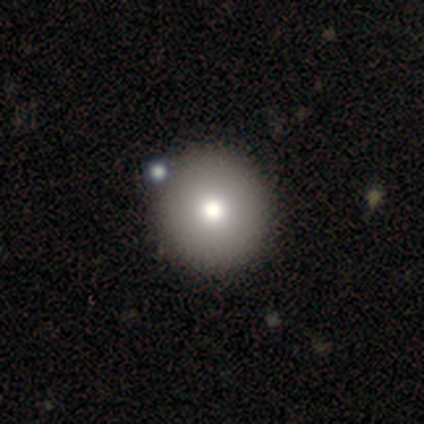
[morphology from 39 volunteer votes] type=smooth (85%); roundness=round (100%); merging=none (51%).